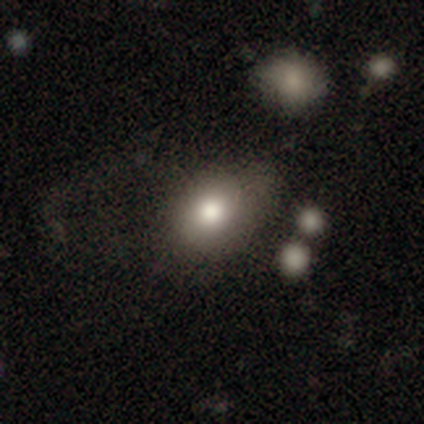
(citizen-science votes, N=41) Volunteers were most divided on "how rounded": in between: 50%, round: 47%, cigar-shaped: 3%. Remaining: smooth or featured — smooth (83%); merging — none (45%).